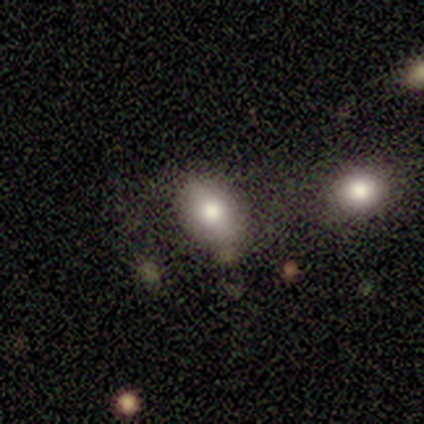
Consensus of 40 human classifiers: Morphology: type=smooth (80%); roundness=in between (84%); merging=none (54%).